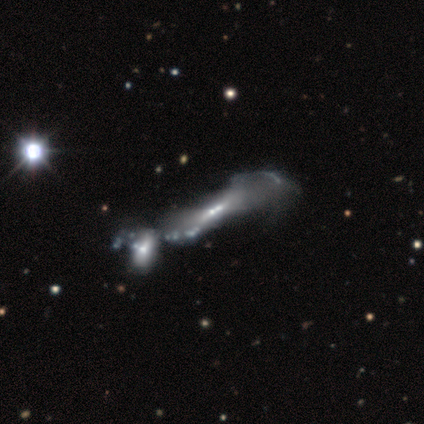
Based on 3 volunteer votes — This is clearly a featured or disk galaxy (100%). It is likely viewed edge-on (67%). Edge-on bulge: possibly boxy (50%, tied with none). Merging: likely none (67%).